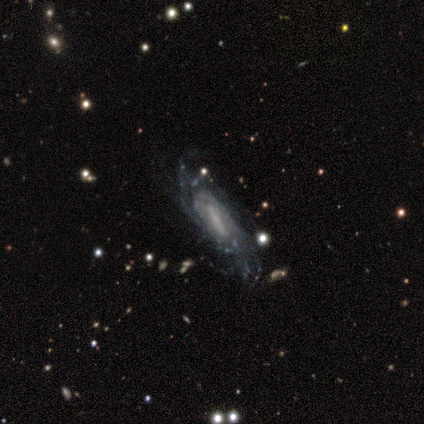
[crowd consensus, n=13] Volunteers were most divided on "spiral winding": tight: 56%, medium: 44%, loose: 0%. More confident: edge-on disk — no (100%); spiral arms — yes (90%); merging — none (83%); smooth or featured — featured or disk (77%); bulge size — small (70%); spiral arm count — can't tell (56%); bar — strong (50%).